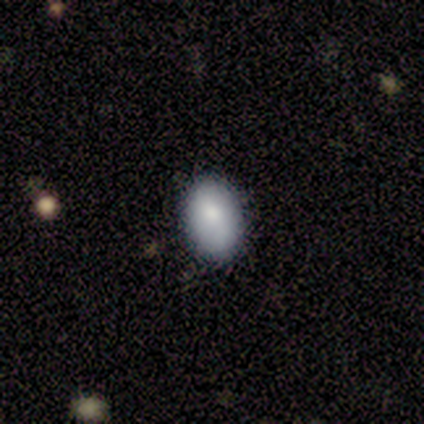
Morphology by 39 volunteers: Overall: smooth (82%). How rounded: in between (91%). Merging: none (83%).